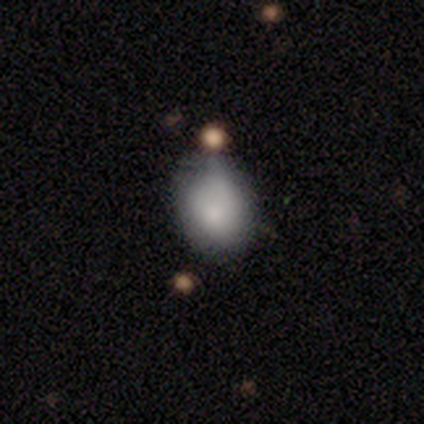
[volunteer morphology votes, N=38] Q: Smooth or featured?
A: smooth (76%); runner-up: featured or disk (16%)
Q: How rounded?
A: in between (55%); runner-up: round (45%)
Q: Merging?
A: none (46%); runner-up: minor disturbance (43%)